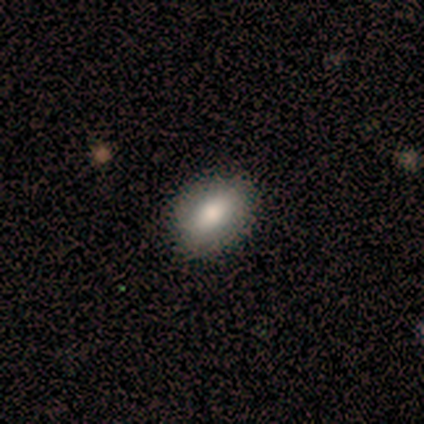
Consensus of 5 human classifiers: Q: Smooth or featured?
A: smooth (100%)
Q: How rounded?
A: in between (80%); runner-up: round (20%)
Q: Merging?
A: none (60%); runner-up: minor disturbance (20%)